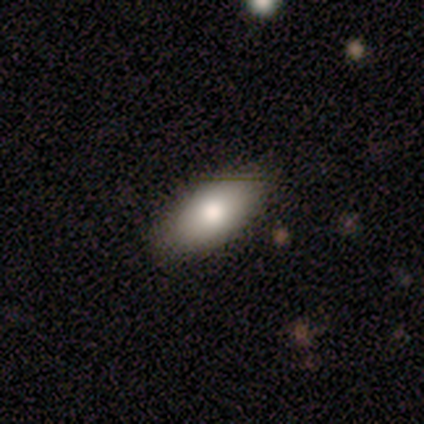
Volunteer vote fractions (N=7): Smooth or featured: smooth — 71% (featured or disk — 29%)
How rounded: in between — 80% (round — 20%)
Merging: none — 71% (minor disturbance — 29%)